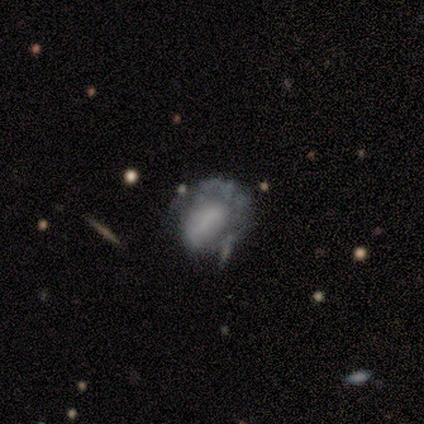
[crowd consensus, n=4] A smooth galaxy with no disk features (50%, tied with featured or disk) that is round (50%, tied with in between).

Vote fractions:
- Smooth or featured? smooth: 50% (tied) / featured or disk: 50% (tied) / star or artifact: 0%
- How rounded? round: 50% (tied) / in between: 50% (tied) / cigar-shaped: 0%
- Merging? none: 50% / minor disturbance: 25% / major disturbance: 25% / merger: 0%